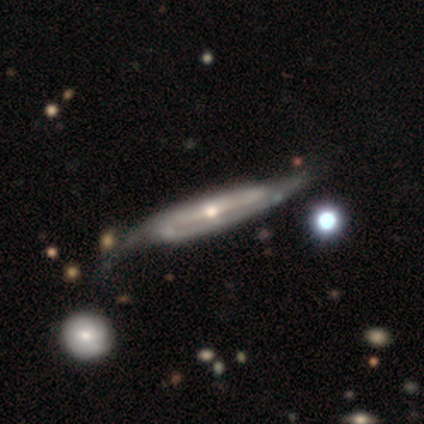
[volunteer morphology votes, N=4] smooth_or_featured: featured or disk (p=1.00)
disk_edge_on: yes (p=0.75) [alt: no p=0.25]
edge_on_bulge: rounded (p=1.00)
merging: none (p=0.50) [tied with: minor disturbance p=0.50]